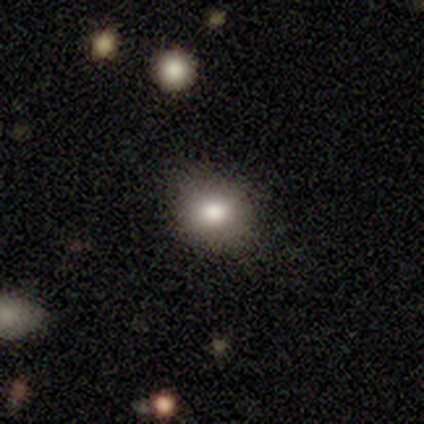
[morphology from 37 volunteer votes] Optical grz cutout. It shows a smooth galaxy with no disk features (81%) that is round (63%). Merging: none (71%).